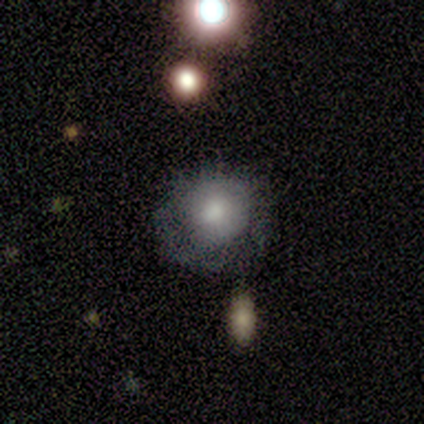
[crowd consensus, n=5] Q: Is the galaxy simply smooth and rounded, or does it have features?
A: smooth — 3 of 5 (60%).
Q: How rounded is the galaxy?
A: round — 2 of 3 (67%).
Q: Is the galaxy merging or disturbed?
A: none — 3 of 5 (60%).